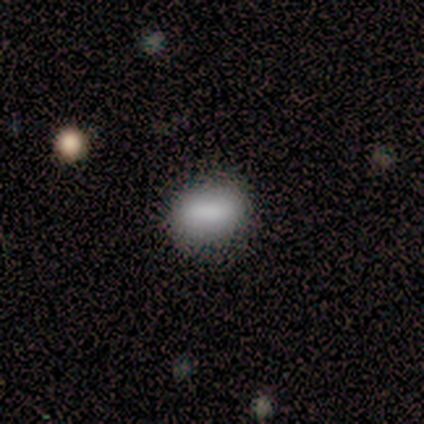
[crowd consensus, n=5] A smooth galaxy with no disk features (100%) that is in between round and cigar-shaped (80%).

Vote fractions:
- Smooth or featured? smooth: 100% / featured or disk: 0% / star or artifact: 0%
- How rounded? in between: 80% / cigar-shaped: 20% / round: 0%
- Merging? none: 80% / minor disturbance: 20% / major disturbance: 0% / merger: 0%